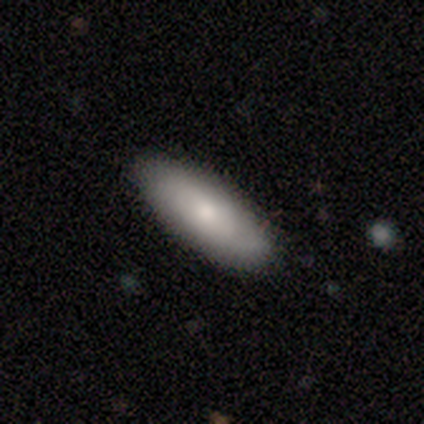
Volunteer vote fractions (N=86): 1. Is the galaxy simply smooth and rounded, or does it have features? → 74% smooth, 20% featured or disk, 6% star or artifact.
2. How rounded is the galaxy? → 64% in between, 36% cigar-shaped, 0% round.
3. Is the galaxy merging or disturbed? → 91% none, 7% minor disturbance, 1% merger, 0% major disturbance.